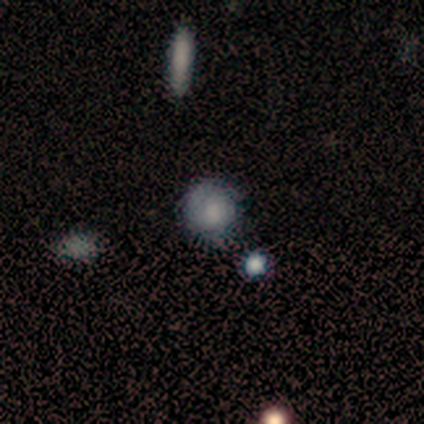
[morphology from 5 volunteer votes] Smooth or featured?
  - smooth: 60% *
  - featured or disk: 20%
  - star or artifact: 20%
How rounded?
  - round: 100% *
  - in between: 0%
  - cigar-shaped: 0%
Merging?
  - none: 75% *
  - minor disturbance: 25%
  - major disturbance: 0%
  - merger: 0%